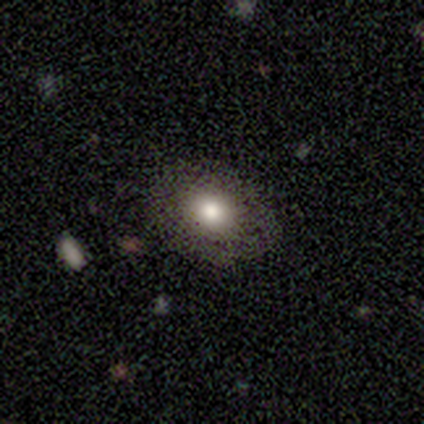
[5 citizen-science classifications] A smooth galaxy with no disk features (80%) that is round (50%, tied with in between). Merging: none (100%).